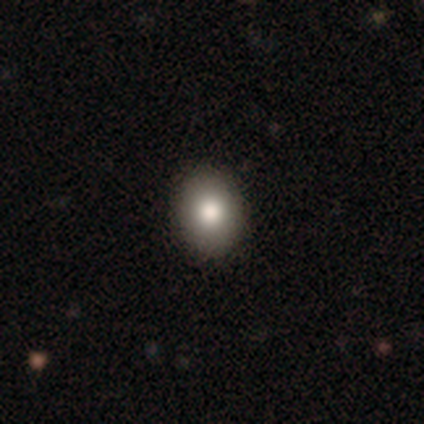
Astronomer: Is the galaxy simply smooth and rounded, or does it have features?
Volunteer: smooth — 87%.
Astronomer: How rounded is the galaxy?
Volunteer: round — 52% (runner-up: in between, 48%).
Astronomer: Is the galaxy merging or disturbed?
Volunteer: none — 94%.